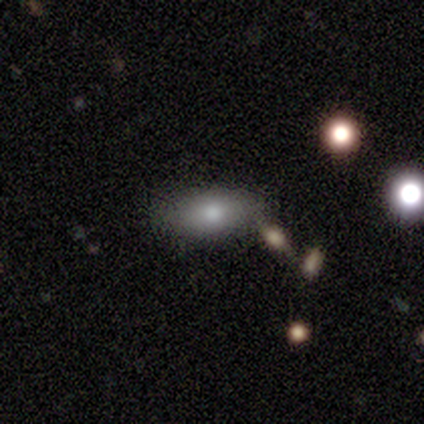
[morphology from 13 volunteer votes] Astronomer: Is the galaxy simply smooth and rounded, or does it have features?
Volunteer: smooth — 92%.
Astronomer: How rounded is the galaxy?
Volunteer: in between — 92%.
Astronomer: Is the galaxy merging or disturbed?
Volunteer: none — 92%.